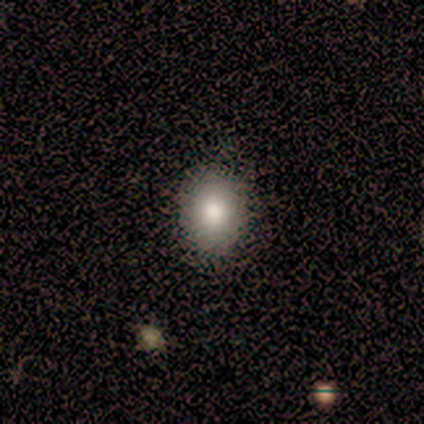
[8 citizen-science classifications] Overall: smooth (50%; star or artifact 38%). How rounded: round (75%). Merging: none (80%).